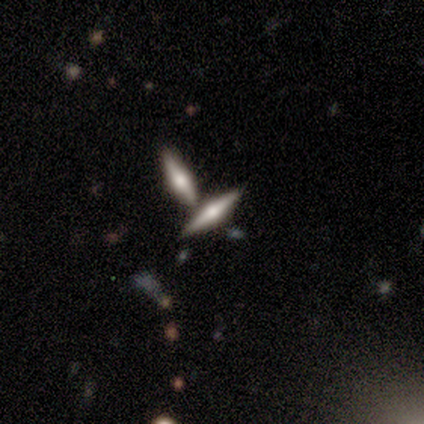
A featured or disk galaxy (54%) viewed edge-on (91%) with a rounded central bulge (100%). Merging: none (61%).